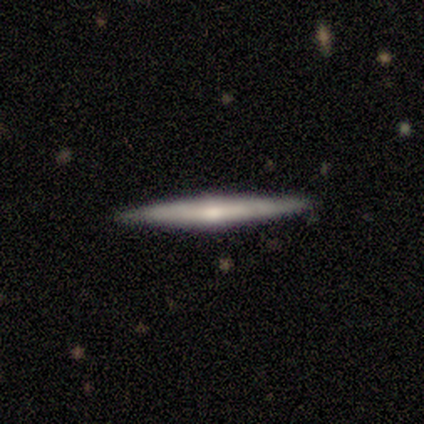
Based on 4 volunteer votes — smooth_or_featured: featured or disk (p=0.75) [alt: smooth p=0.25]
disk_edge_on: yes (p=1.00)
edge_on_bulge: none (p=0.67) [alt: rounded p=0.33]
merging: none (p=1.00)